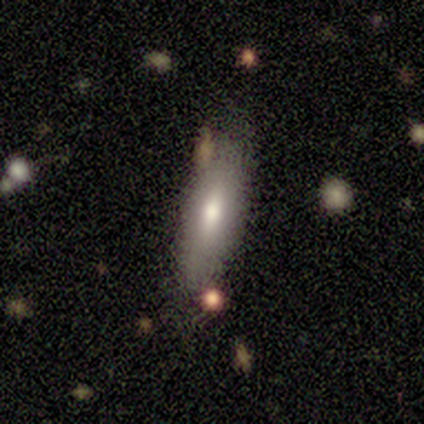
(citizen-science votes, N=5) A smooth galaxy with no disk features (60%) that is in between round and cigar-shaped (67%). Merging: none (100%).